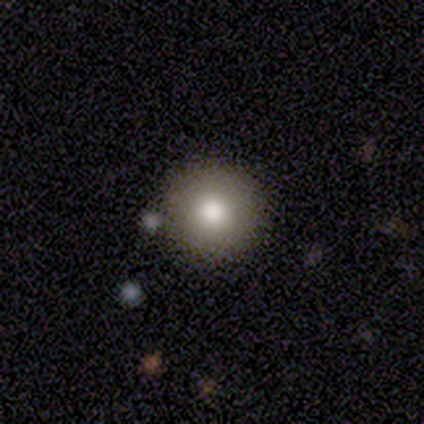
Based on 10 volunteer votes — Q: Smooth or featured?
A: smooth (70%); runner-up: featured or disk (20%)
Q: How rounded?
A: round (100%)
Q: Merging?
A: none (89%); runner-up: minor disturbance (11%)